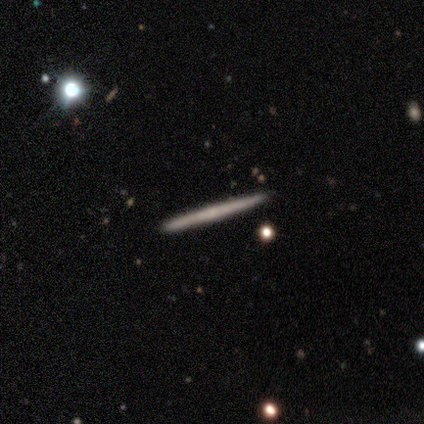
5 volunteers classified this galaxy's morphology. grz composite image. It shows a smooth galaxy with no disk features (60%) that is cigar-shaped (100%). Merging: none (100%).